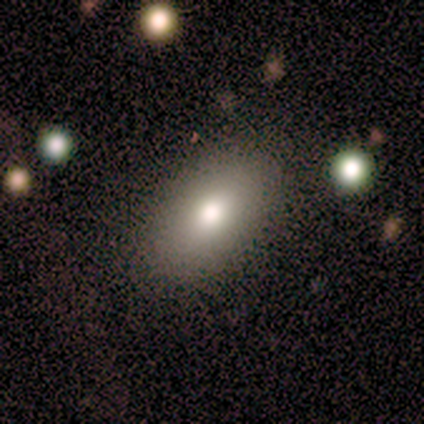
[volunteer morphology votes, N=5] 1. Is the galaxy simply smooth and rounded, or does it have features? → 100% smooth, 0% featured or disk, 0% star or artifact.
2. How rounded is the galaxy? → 80% in between, 20% round, 0% cigar-shaped.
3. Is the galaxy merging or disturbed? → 100% none, 0% minor disturbance, 0% major disturbance, 0% merger.